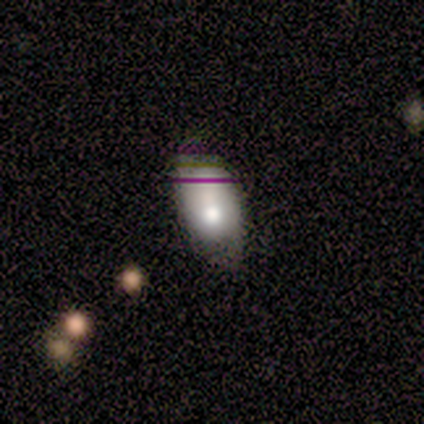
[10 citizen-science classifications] Q: Smooth or featured?
A: smooth (70%); runner-up: featured or disk (20%)
Q: How rounded?
A: in between (86%); runner-up: round (14%)
Q: Merging?
A: none (44%); runner-up: minor disturbance (33%)